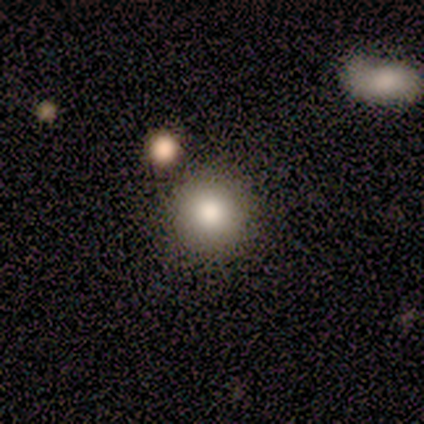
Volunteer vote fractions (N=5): Overall: smooth (60%; featured or disk 20%). How rounded: round (100%). Merging: none (100%).